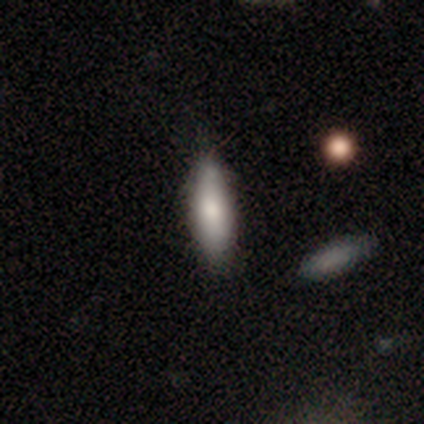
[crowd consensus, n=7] A smooth galaxy with no disk features (86%) that is in between round and cigar-shaped (67%).

Vote fractions:
- Smooth or featured? smooth: 86% / featured or disk: 14% / star or artifact: 0%
- How rounded? in between: 67% / cigar-shaped: 33% / round: 0%
- Merging? none: 71% / major disturbance: 14% / merger: 14% / minor disturbance: 0%